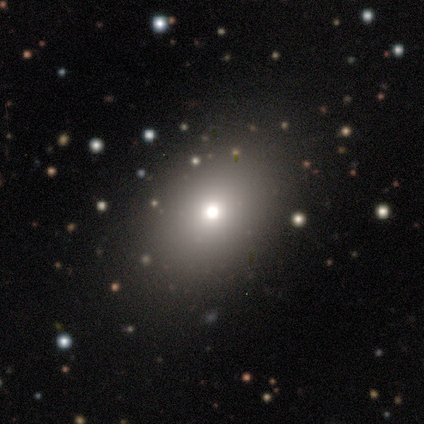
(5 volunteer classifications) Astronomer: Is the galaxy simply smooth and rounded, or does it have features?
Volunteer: smooth — 80%.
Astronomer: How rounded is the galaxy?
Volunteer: round — 50%, tied with in between at 50%.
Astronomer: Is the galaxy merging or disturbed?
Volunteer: none — 75%.